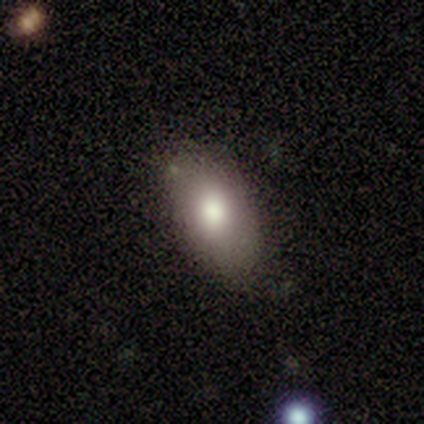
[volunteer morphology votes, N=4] Smooth or featured?
  - smooth: 100% *
  - featured or disk: 0%
  - star or artifact: 0%
How rounded?
  - in between: 100% *
  - round: 0%
  - cigar-shaped: 0%
Merging?
  - none: 75% *
  - minor disturbance: 25%
  - major disturbance: 0%
  - merger: 0%